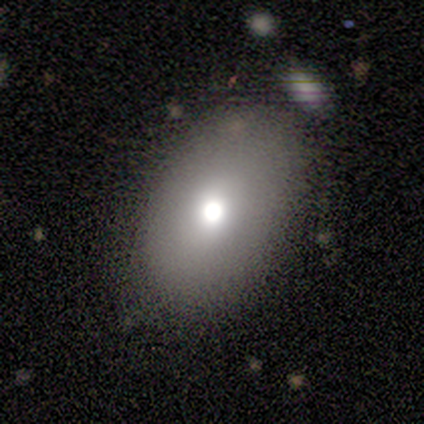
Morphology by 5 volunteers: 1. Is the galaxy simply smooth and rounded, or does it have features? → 80% smooth, 20% featured or disk, 0% star or artifact.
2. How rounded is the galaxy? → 100% in between, 0% round, 0% cigar-shaped.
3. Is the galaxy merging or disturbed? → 60% none, 20% minor disturbance, 20% merger, 0% major disturbance.